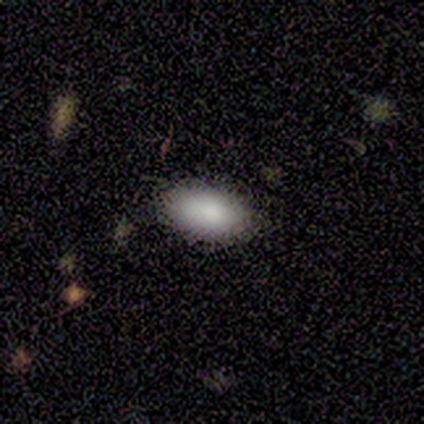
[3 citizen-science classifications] A smooth galaxy with no disk features (100%) that is in between round and cigar-shaped (100%).

Vote fractions:
- Smooth or featured? smooth: 100% / featured or disk: 0% / star or artifact: 0%
- How rounded? in between: 100% / round: 0% / cigar-shaped: 0%
- Merging? none: 67% / minor disturbance: 33% / major disturbance: 0% / merger: 0%